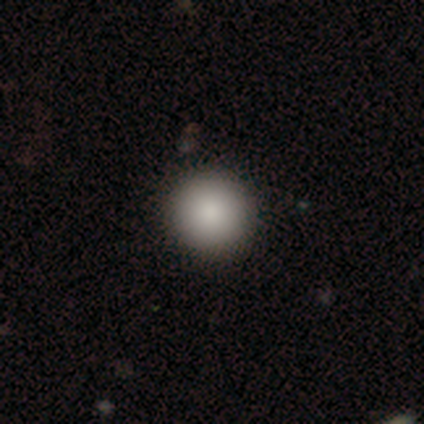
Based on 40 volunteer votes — Smooth or featured? smooth (92%)
How rounded? round (89%)
Merging? none (51%)